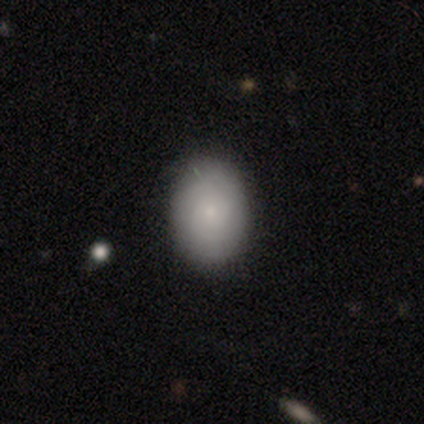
smooth-or-featured: smooth: 60% | featured or disk: 36% | star or artifact: 4%
  how-rounded: in between: 83% | round: 15% | cigar-shaped: 2%
  merging: none: 83% | minor disturbance: 14% | major disturbance: 2% | merger: 1%